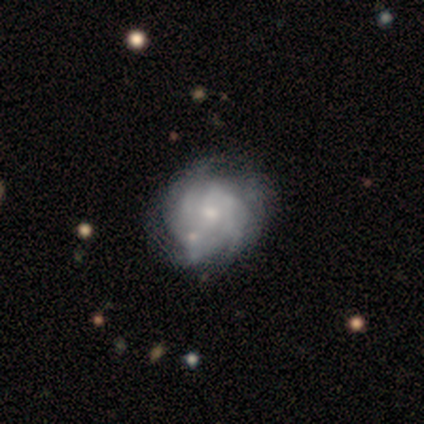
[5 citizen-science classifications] This appears to be a featured or disk galaxy (60%) with no bar (67%), tight (67%) spiral arms (100%) and a small central bulge (67%). Merging: none (75%).